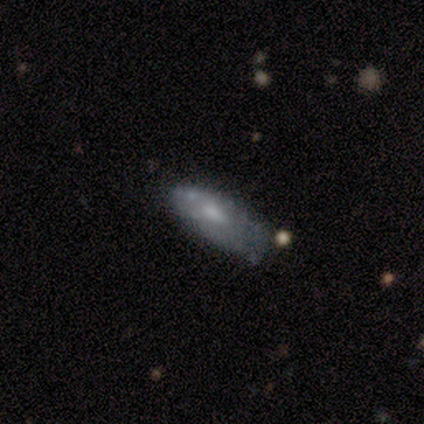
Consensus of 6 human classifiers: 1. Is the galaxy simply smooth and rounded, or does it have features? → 50% smooth, 33% featured or disk, 17% star or artifact.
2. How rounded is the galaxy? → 67% in between, 33% cigar-shaped, 0% round.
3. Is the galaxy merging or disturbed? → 60% minor disturbance, 20% none, 20% major disturbance, 0% merger.